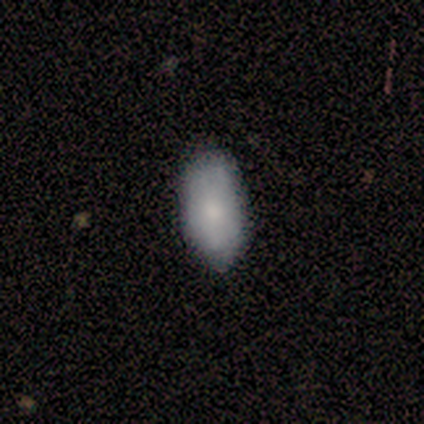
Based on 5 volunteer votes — Volunteers were most divided on "merging": none: 60%, minor disturbance: 40%, major disturbance: 0%, merger: 0%. More confident: how rounded — in between (100%); smooth or featured — smooth (80%).